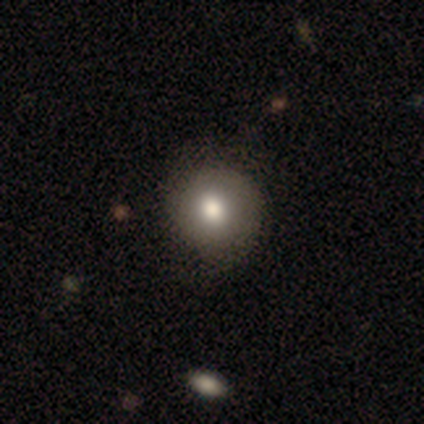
Smooth or featured: smooth — 75% (featured or disk — 25%)
How rounded: round — 100%
Merging: none — 50% (tied with minor disturbance — 50%)